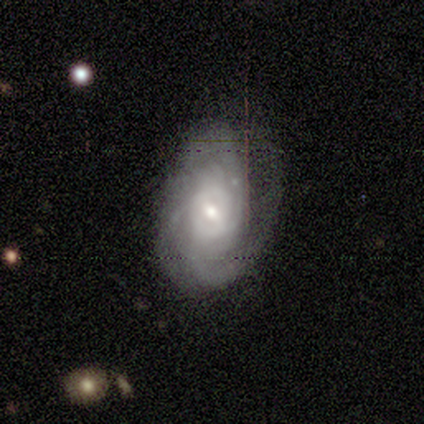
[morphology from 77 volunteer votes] Q: Smooth or featured?
A: featured or disk (83%); runner-up: smooth (9%)
Q: Edge-on disk?
A: no (100%)
Q: Bar?
A: weak (55%); runner-up: no (28%)
Q: Spiral arms?
A: yes (94%); runner-up: no (6%)
Q: Spiral winding?
A: tight (67%); runner-up: medium (28%)
Q: Spiral arm count?
A: can't tell (53%); runner-up: 2 (20%)
Q: Bulge size?
A: moderate (52%); runner-up: small (42%)
Q: Merging?
A: none (30%); runner-up: minor disturbance (17%)